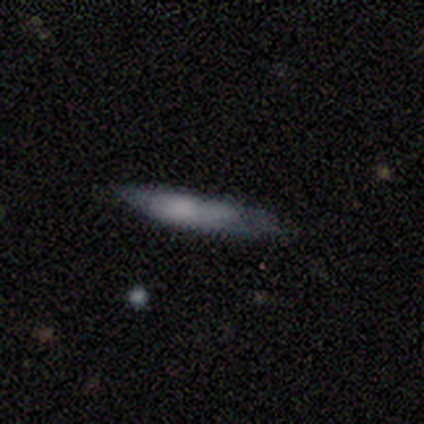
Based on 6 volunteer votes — This appears to be a smooth galaxy with no disk features (67%) that is cigar-shaped (100%). Merging: none (40%, tied with minor disturbance).